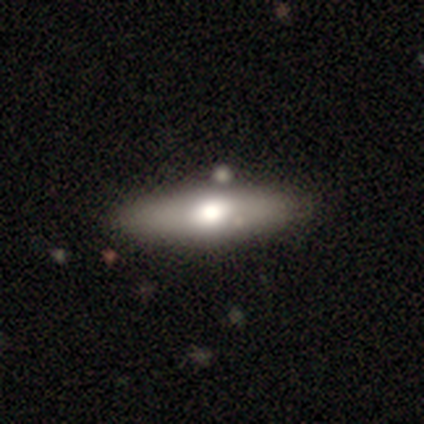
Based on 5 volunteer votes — Morphology: type=featured or disk (80%); edge-on=yes (75%); edge-on bulge=rounded (67%); merging=minor disturbance (60%).